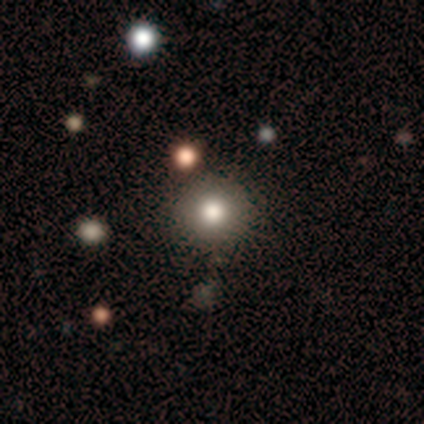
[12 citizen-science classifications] smooth_or_featured: smooth (p=0.75) [alt: star or artifact p=0.17]
how_rounded: round (p=1.00)
merging: none (p=1.00)